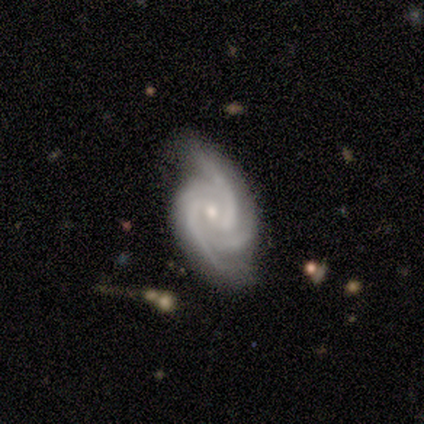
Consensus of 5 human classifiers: Volunteers were most divided on "bar": no: 60%, weak: 40%, strong: 0%. More confident: smooth or featured — featured or disk (100%); edge-on disk — no (100%); spiral arms — yes (100%); bulge size — small (80%); spiral winding — tight (60%); merging — minor disturbance (60%); spiral arm count — 3 (60%).